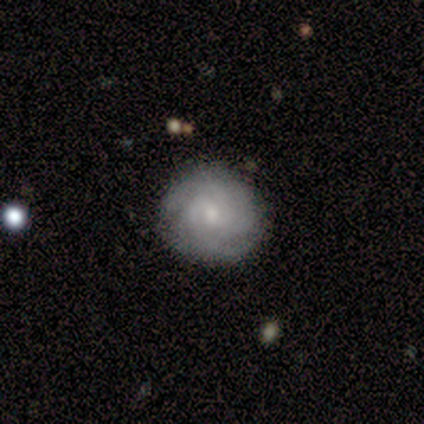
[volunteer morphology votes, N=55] type=featured or disk (71%); edge-on=no (100%); bar=no (82%); spiral arms=yes (97%); winding=tight (63%); arm count=3 (42%, tied with can't tell); bulge=moderate (46%); merging=none (79%).